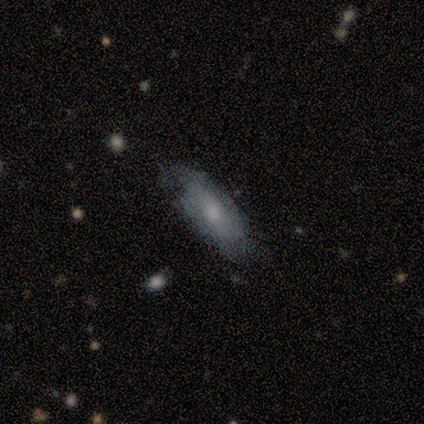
This appears to be a featured or disk galaxy (60%) with no bar (100%), no spiral arms (67%) and a moderate central bulge (67%). Merging: none (75%).